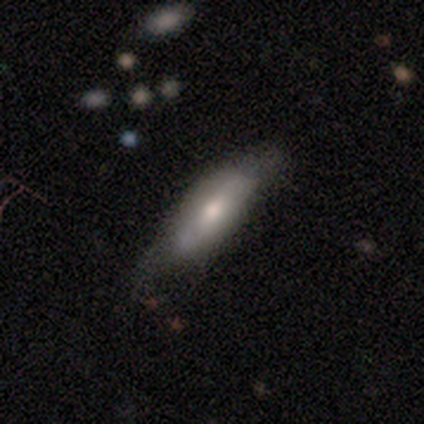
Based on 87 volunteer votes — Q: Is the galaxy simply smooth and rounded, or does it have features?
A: smooth — 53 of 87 (61%).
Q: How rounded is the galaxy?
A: in between — 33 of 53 (62%).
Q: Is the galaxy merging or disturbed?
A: none — 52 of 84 (62%).